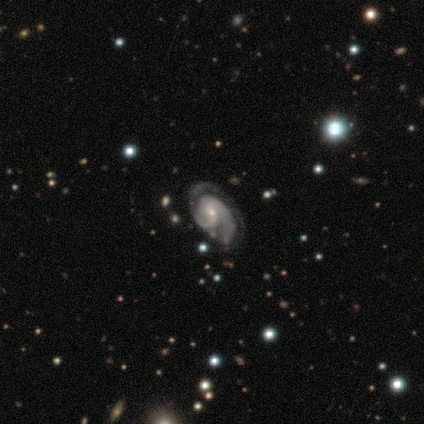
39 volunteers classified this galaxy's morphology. Volunteers were most divided on "spiral winding": tight: 56%, medium: 44%, loose: 0%. Remaining: edge-on disk — no (100%); spiral arms — yes (100%); smooth or featured — featured or disk (92%); bar — no (69%); bulge size — small (69%); spiral arm count — 2 (58%); merging — none (39%).